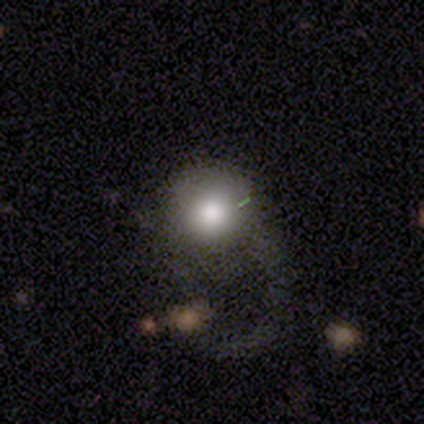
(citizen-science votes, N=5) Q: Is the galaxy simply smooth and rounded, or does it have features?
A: smooth — 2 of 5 (40%, tied with featured or disk).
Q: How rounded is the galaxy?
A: round — 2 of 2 (100%).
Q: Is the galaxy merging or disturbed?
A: none — 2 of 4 (50%, tied with major disturbance).